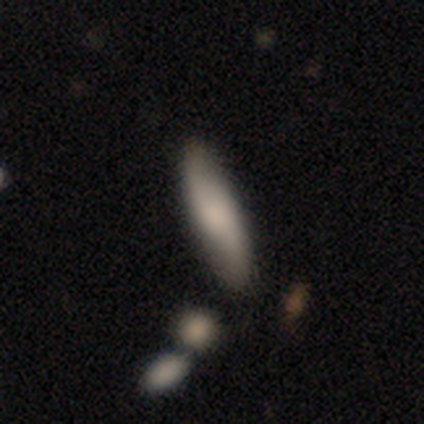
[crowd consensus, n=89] Overall: smooth (57%; featured or disk 36%). How rounded: cigar-shaped (73%). Merging: none (73%).